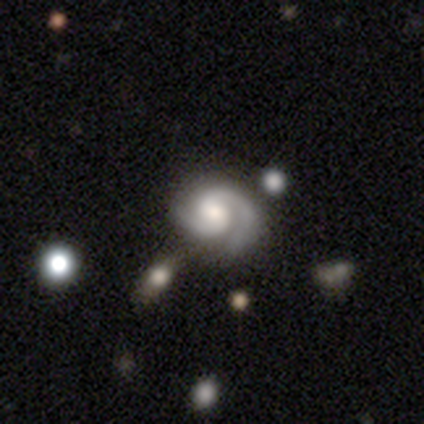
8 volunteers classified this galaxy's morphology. A featured or disk galaxy (75%) with no bar (50%), 2 (83%) tight (50%, tied with medium) spiral arms (100%) and no central bulge (50%).

Vote fractions:
- Smooth or featured? featured or disk: 75% / smooth: 12% / star or artifact: 12%
- Edge-on disk? no: 100% / yes: 0%
- Bar? no: 50% / strong: 33% / weak: 17%
- Spiral arms? yes: 100% / no: 0%
- Spiral winding? tight: 50% (tied) / medium: 50% (tied) / loose: 0%
- Spiral arm count? 2: 83% / 1: 17% / 3: 0% / 4: 0% / more than 4: 0% / can't tell: 0%
- Bulge size? none: 50% / moderate: 33% / small: 17% / dominant: 0% / large: 0%
- Merging? none: 71% / major disturbance: 14% / merger: 14% / minor disturbance: 0%